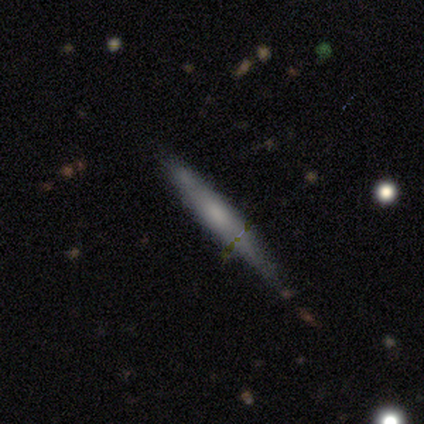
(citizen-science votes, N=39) This appears to be a featured or disk galaxy (54%) viewed edge-on (95%) with a rounded central bulge (45%). Merging: none (56%).